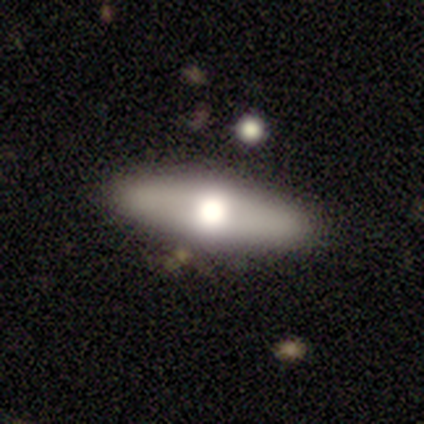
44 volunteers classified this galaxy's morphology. Smooth or featured? smooth (48%)
How rounded? in between (57%)
Merging? none (83%)